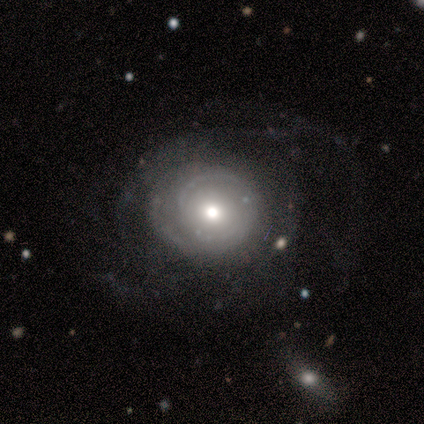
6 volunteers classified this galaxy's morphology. Smooth or featured? featured or disk (50%)
Edge-on disk? no (100%)
Bar? no (100%)
Spiral arms? no (67%)
Bulge size? moderate (100%)
Merging? none (50%, tied with major disturbance)